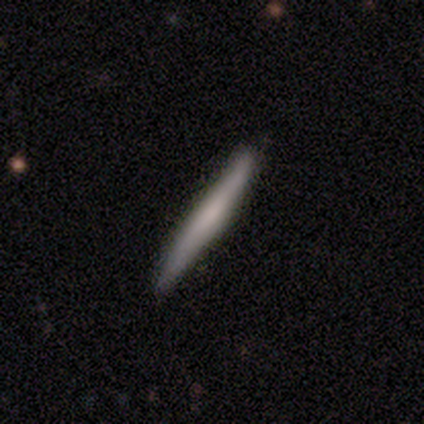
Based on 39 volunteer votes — Volunteers were most divided on "smooth or featured": featured or disk: 51%, smooth: 46%, star or artifact: 3%. More confident: edge-on disk — yes (95%); merging — none (68%); edge-on bulge — none (68%).